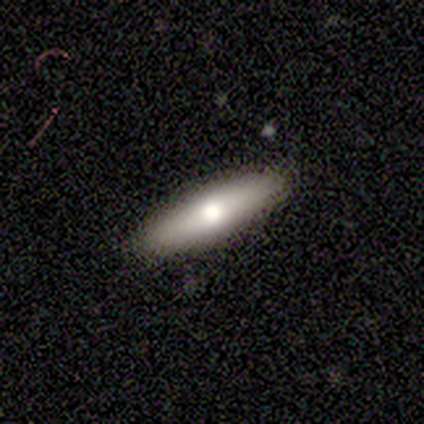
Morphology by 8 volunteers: Volunteers were most divided on "how rounded": cigar-shaped: 60%, in between: 40%, round: 0%. More confident: merging — none (100%); smooth or featured — smooth (62%).